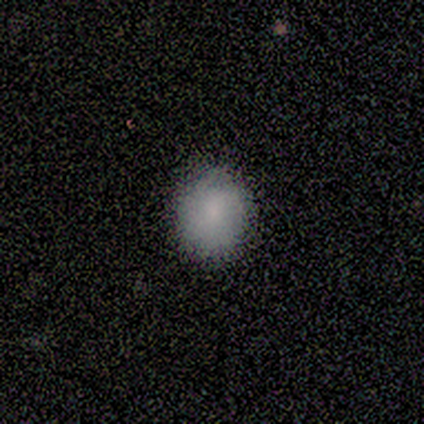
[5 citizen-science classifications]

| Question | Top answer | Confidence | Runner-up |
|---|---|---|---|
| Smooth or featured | smooth | 60% | featured or disk (20%) |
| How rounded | round | 67% | in between (33%) |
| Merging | none | 75% | minor disturbance (25%) |